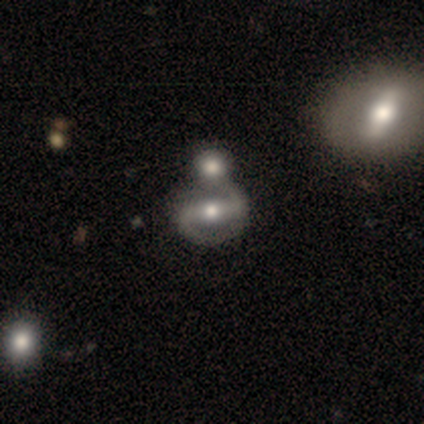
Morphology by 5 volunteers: smooth_or_featured: featured or disk (p=0.80) [alt: smooth p=0.20]
disk_edge_on: no (p=1.00)
bar: strong (p=0.50) [tied with: weak p=0.50]
has_spiral_arms: yes (p=1.00)
spiral_winding: medium (p=1.00)
spiral_arm_count: 2 (p=1.00)
bulge_size: moderate (p=1.00)
merging: none (p=0.40) [alt: minor disturbance p=0.20]